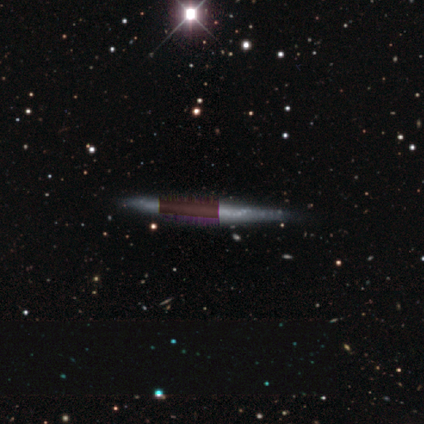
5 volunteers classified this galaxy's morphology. featured or disk 60%, smooth 20%, star or artifact 20%. Down the decision tree: edge-on disk — yes (100%); edge-on bulge — none (67%); merging — none (75%).